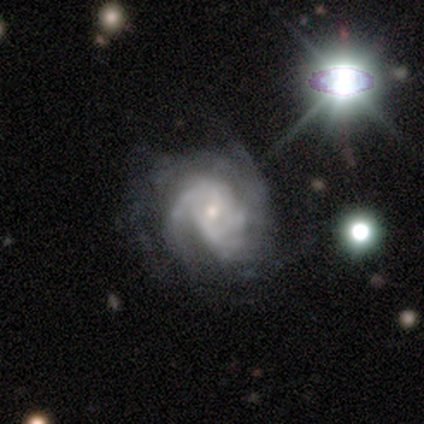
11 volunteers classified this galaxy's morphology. This appears to be a featured or disk galaxy (82%) with a weak bar (56%), tight (56%) spiral arms (100%) and a small central bulge (56%). Merging: none (60%).